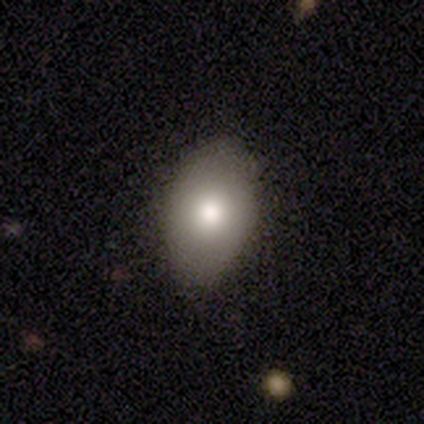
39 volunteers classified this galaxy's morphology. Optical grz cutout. It shows a smooth galaxy with no disk features (72%) that is in between round and cigar-shaped (93%). Merging: none (78%).